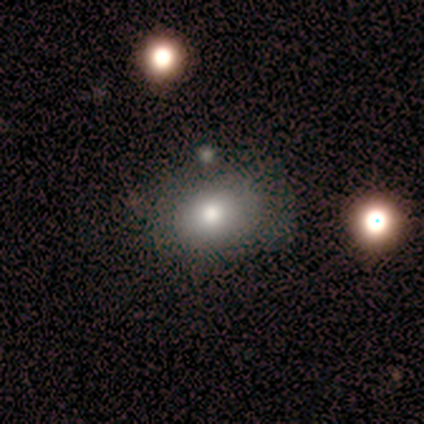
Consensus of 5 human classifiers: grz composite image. It shows a smooth galaxy with no disk features (80%) that is in between round and cigar-shaped (100%). Merging: none (80%).